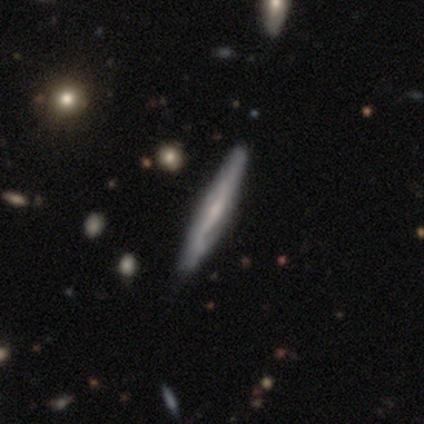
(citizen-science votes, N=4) Overall: featured or disk (100%). Edge-on disk: yes (75%). Edge-on bulge: none (100%). Merging: none (100%).